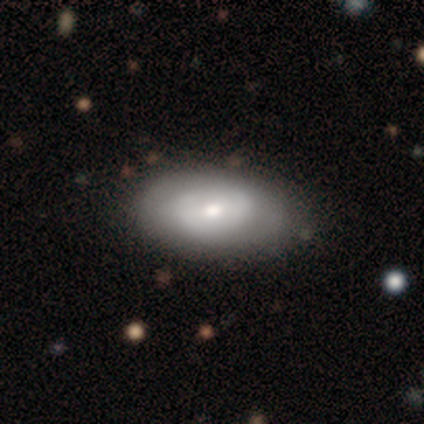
smooth_or_featured: smooth (p=0.60) [alt: featured or disk p=0.40]
how_rounded: in between (p=1.00)
merging: none (p=0.60) [alt: minor disturbance p=0.40]